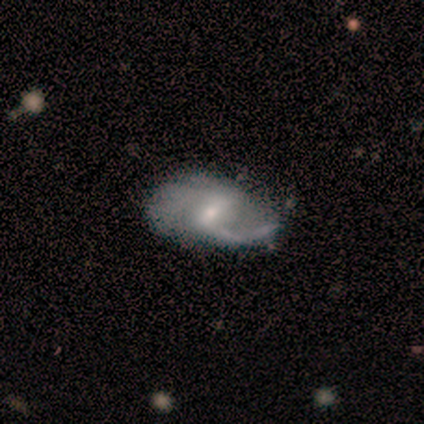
Smooth or featured?
  - featured or disk: 80% *
  - smooth: 20%
  - star or artifact: 0%
Edge-on disk?
  - no: 100% *
  - yes: 0%
Bar?
  - strong: 50% * (tied)
  - weak: 50% * (tied)
  - no: 0%
Spiral arms?
  - yes: 100% *
  - no: 0%
Spiral winding?
  - medium: 50% * (tied)
  - loose: 50% * (tied)
  - tight: 0%
Spiral arm count?
  - 2: 75% *
  - 1: 25%
  - 3: 0%
  - 4: 0%
  - more than 4: 0%
  - can't tell: 0%
Bulge size?
  - moderate: 50% * (tied)
  - small: 50% * (tied)
  - dominant: 0%
  - large: 0%
  - none: 0%
Merging?
  - minor disturbance: 40% * (tied)
  - major disturbance: 40% * (tied)
  - none: 20%
  - merger: 0%